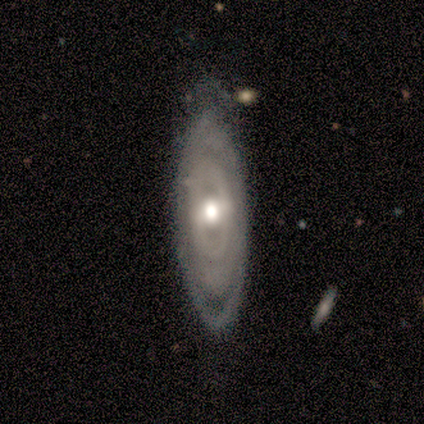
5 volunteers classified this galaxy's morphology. Smooth or featured?
  - featured or disk: 60% *
  - smooth: 40%
  - star or artifact: 0%
Edge-on disk?
  - no: 100% *
  - yes: 0%
Bar?
  - no: 67% *
  - strong: 33%
  - weak: 0%
Spiral arms?
  - yes: 67% *
  - no: 33%
Spiral winding?
  - tight: 100% *
  - medium: 0%
  - loose: 0%
Spiral arm count?
  - 3: 50% * (tied)
  - can't tell: 50% * (tied)
  - 1: 0%
  - 2: 0%
  - 4: 0%
  - more than 4: 0%
Bulge size?
  - large: 33% * (tied)
  - moderate: 33% * (tied)
  - small: 33% * (tied)
  - dominant: 0%
  - none: 0%
Merging?
  - none: 60% *
  - minor disturbance: 40%
  - major disturbance: 0%
  - merger: 0%